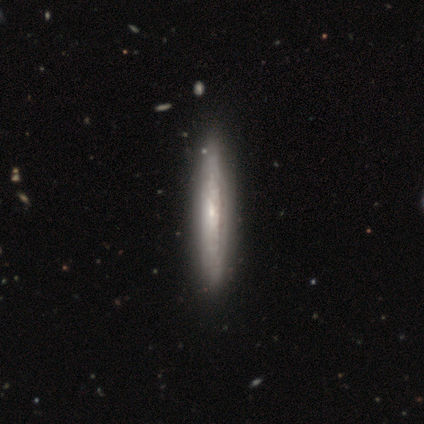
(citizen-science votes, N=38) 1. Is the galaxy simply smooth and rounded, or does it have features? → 76% featured or disk, 18% smooth, 5% star or artifact.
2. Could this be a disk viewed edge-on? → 97% yes, 3% no.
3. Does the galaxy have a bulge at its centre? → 68% none, 18% boxy, 14% rounded.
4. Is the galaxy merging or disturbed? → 67% none, 3% merger, 0% minor disturbance, 0% major disturbance.